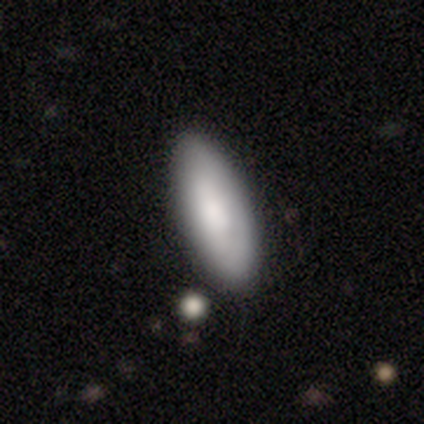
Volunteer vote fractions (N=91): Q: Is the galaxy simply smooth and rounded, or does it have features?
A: smooth — 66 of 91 (73%).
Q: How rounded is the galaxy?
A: in between — 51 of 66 (77%).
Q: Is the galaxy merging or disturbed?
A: none — 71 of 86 (83%).